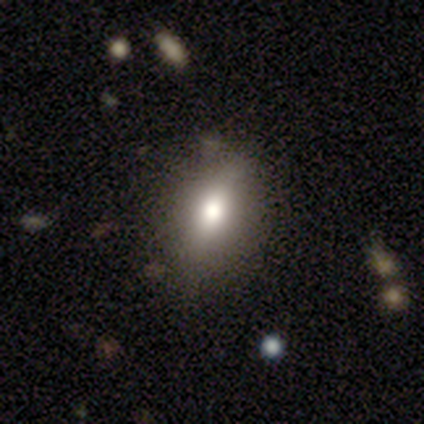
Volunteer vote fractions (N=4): Smooth or featured?
  - smooth: 75% *
  - star or artifact: 25%
  - featured or disk: 0%
How rounded?
  - in between: 100% *
  - round: 0%
  - cigar-shaped: 0%
Merging?
  - none: 100% *
  - minor disturbance: 0%
  - major disturbance: 0%
  - merger: 0%